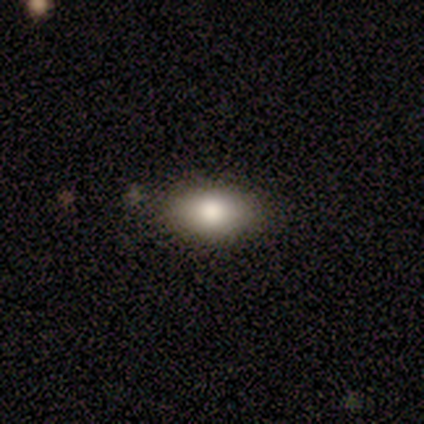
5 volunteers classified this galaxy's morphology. Smooth or featured?
  - smooth: 80% *
  - star or artifact: 20%
  - featured or disk: 0%
How rounded?
  - in between: 100% *
  - round: 0%
  - cigar-shaped: 0%
Merging?
  - none: 75% *
  - major disturbance: 25%
  - minor disturbance: 0%
  - merger: 0%